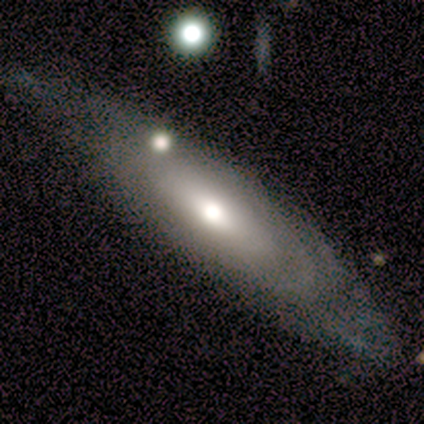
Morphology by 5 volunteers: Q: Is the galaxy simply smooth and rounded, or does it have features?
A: featured or disk — 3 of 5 (60%).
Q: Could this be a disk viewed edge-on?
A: yes — 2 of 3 (67%).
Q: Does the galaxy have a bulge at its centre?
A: rounded — 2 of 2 (100%).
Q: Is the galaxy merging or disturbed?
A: none — 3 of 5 (60%).